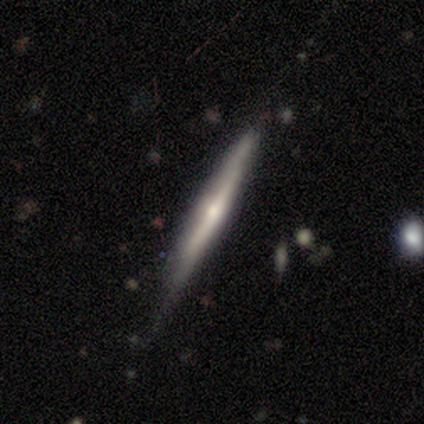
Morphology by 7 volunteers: type=featured or disk (100%); edge-on=yes (100%); edge-on bulge=rounded (57%); merging=none (71%).